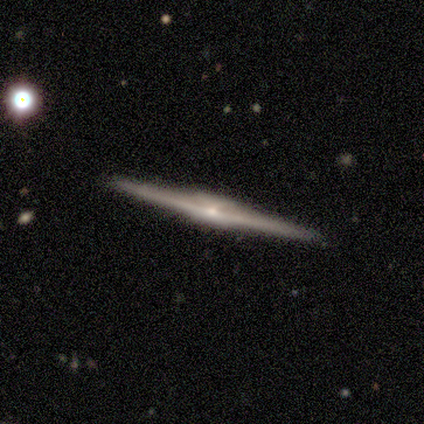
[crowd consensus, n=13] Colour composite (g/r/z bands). It shows a featured or disk galaxy (85%) viewed edge-on (100%) with a rounded central bulge (45%). Merging: none (100%).